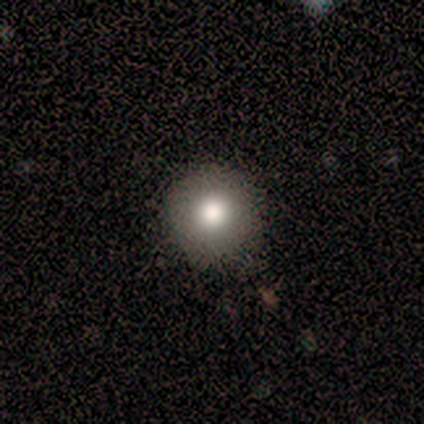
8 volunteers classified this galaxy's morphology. This is likely a smooth galaxy (75%). How rounded: clearly round (100%). Merging: likely none (71%).